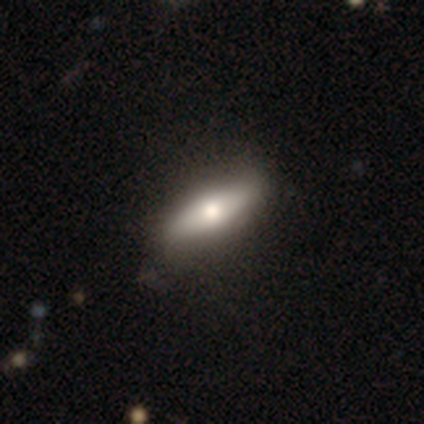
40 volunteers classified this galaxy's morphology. A smooth galaxy with no disk features (68%) that is in between round and cigar-shaped (59%). Merging: none (92%).